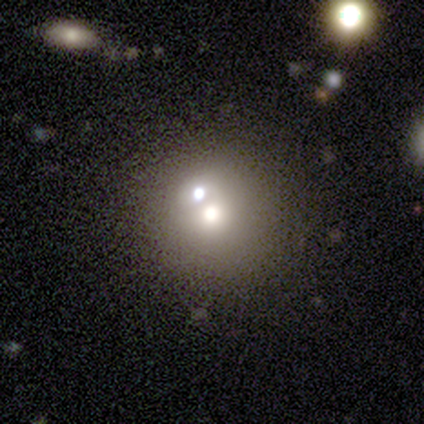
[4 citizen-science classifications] Smooth or featured? 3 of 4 (75%) said star or artifact.